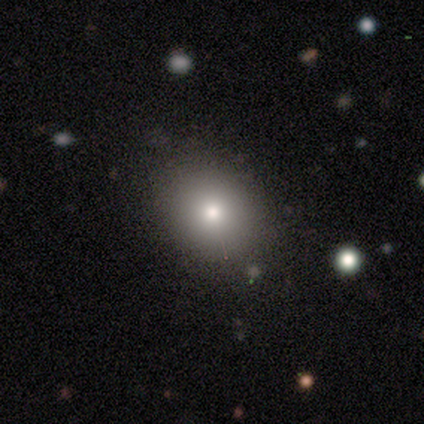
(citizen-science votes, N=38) Smooth or featured?
  - smooth: 68% *
  - star or artifact: 18%
  - featured or disk: 13%
How rounded?
  - round: 54% *
  - in between: 46%
  - cigar-shaped: 0%
Merging?
  - none: 90% *
  - minor disturbance: 10%
  - major disturbance: 0%
  - merger: 0%